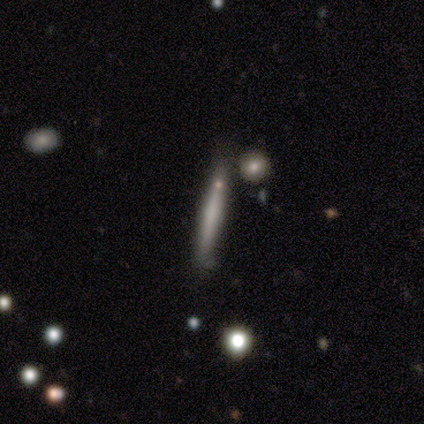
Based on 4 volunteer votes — This is possibly a smooth galaxy (50%, tied with featured or disk). How rounded: clearly cigar-shaped (100%). Merging: clearly none (100%).